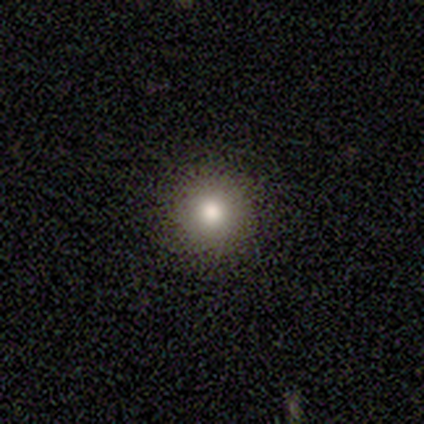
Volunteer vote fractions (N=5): Smooth or featured? 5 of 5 (100%) said smooth. How rounded? 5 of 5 (100%) said round. Merging? 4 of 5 (80%) said none.